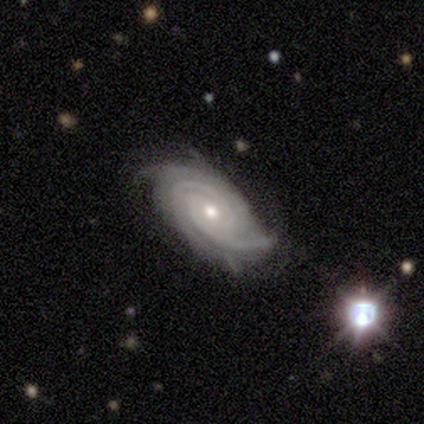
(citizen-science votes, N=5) smooth_or_featured: featured or disk (p=1.00)
disk_edge_on: no (p=1.00)
bar: no (p=0.80) [alt: strong p=0.20]
has_spiral_arms: yes (p=1.00)
spiral_winding: tight (p=1.00)
spiral_arm_count: 4 (p=0.40) [alt: 2 p=0.20]
bulge_size: moderate (p=1.00)
merging: none (p=1.00)